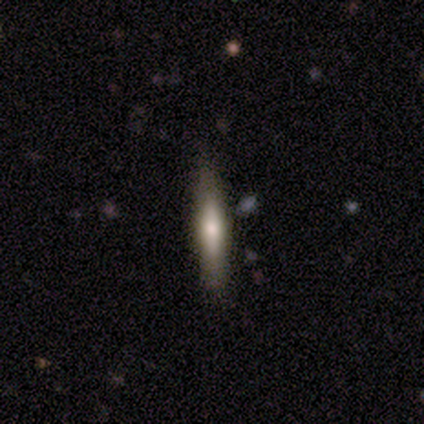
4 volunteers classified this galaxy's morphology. Smooth or featured? featured or disk (75%)
Edge-on disk? yes (100%)
Edge-on bulge? boxy (67%)
Merging? none (100%)